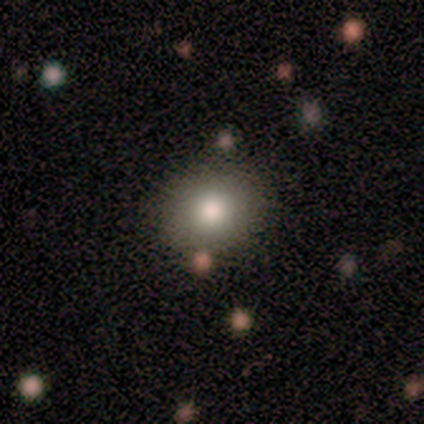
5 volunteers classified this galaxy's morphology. Smooth or featured? smooth (100%)
How rounded? round (100%)
Merging? none (100%)